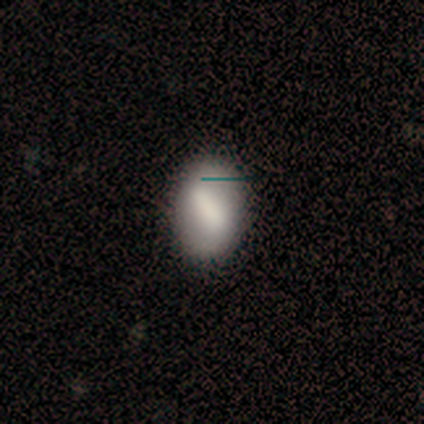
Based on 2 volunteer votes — smooth 100%, featured or disk 0%, star or artifact 0%. Down the decision tree: how rounded — in between (100%); merging — none (100%).